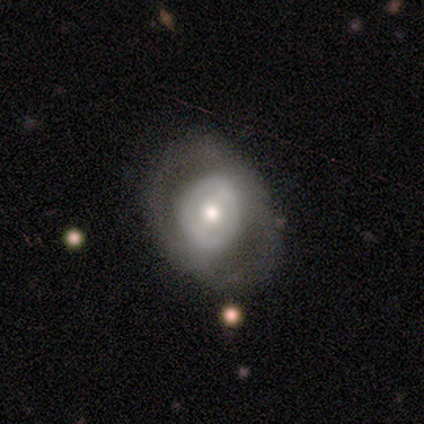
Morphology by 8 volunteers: Smooth or featured? 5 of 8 (62%) said featured or disk. Edge-on disk? 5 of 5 (100%) said no. Bar? 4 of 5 (80%) said no. Spiral arms? 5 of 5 (100%) said no. Bulge size? 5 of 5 (100%) said moderate. Merging? 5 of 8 (62%) said none.